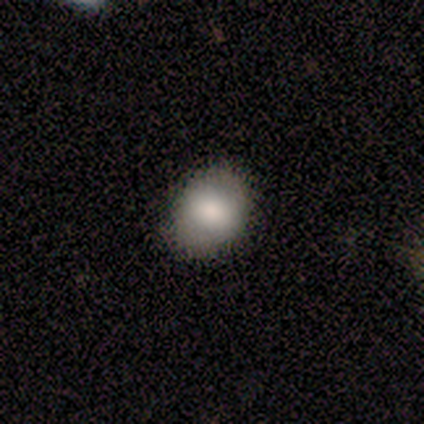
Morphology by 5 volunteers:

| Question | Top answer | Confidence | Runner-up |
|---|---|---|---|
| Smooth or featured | smooth | 80% | featured or disk (20%) |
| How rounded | round | 75% | in between (25%) |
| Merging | none | 80% | minor disturbance (20%) |